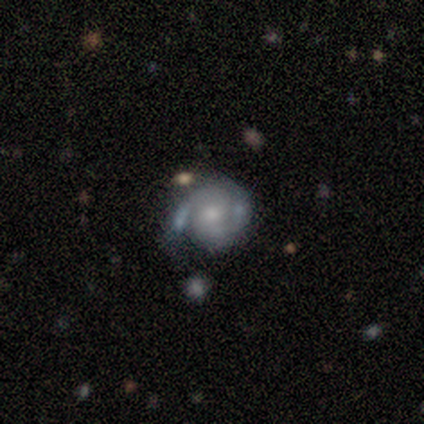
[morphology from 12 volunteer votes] smooth-or-featured: smooth: 58% | featured or disk: 42% | star or artifact: 0%
  how-rounded: round: 71% | in between: 29% | cigar-shaped: 0%
  merging: minor disturbance: 33% (tied) | merger: 33% (tied) | none: 25% | major disturbance: 8%